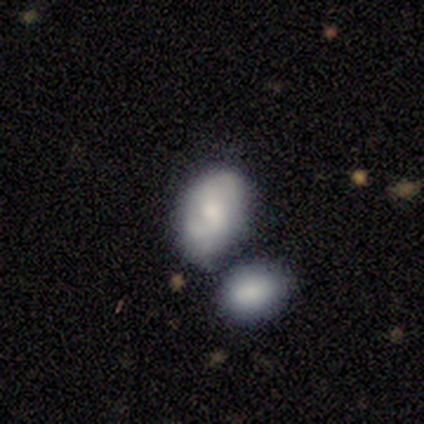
smooth-or-featured: smooth: 55% | featured or disk: 39% | star or artifact: 5%
  how-rounded: in between: 86% | round: 14% | cigar-shaped: 0%
  merging: none: 39% | merger: 33% | minor disturbance: 28% | major disturbance: 0%